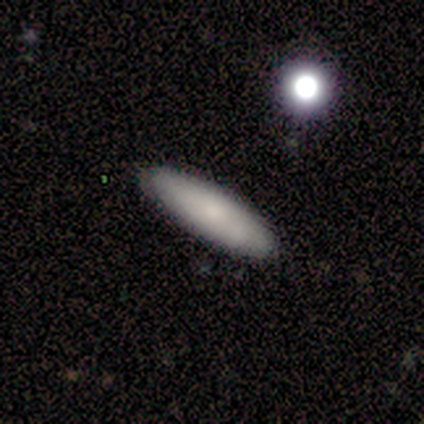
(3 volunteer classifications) This appears to be a smooth galaxy with no disk features (100%) that is cigar-shaped (67%). Merging: none (100%).